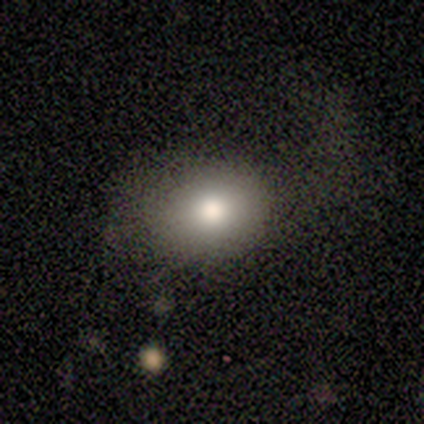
Q: Smooth or featured?
A: smooth (60%); runner-up: featured or disk (20%)
Q: How rounded?
A: round (67%); runner-up: in between (33%)
Q: Merging?
A: none (50%); tied with: minor disturbance (50%)